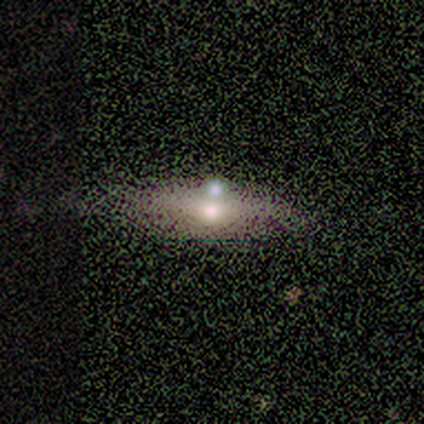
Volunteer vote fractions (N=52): Q: Smooth or featured?
A: featured or disk (50%); runner-up: smooth (35%)
Q: Edge-on disk?
A: yes (69%); runner-up: no (31%)
Q: Edge-on bulge?
A: rounded (89%); runner-up: boxy (6%)
Q: Merging?
A: none (57%); runner-up: merger (27%)